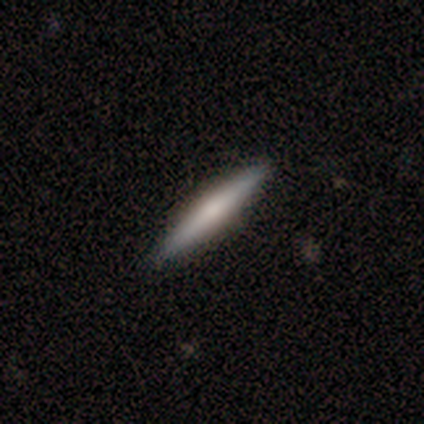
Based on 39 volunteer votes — Smooth or featured: featured or disk — 62% (smooth — 38%)
Edge-on disk: yes — 100%
Edge-on bulge: rounded — 50% (none — 42%)
Merging: none — 92% (minor disturbance — 8%)